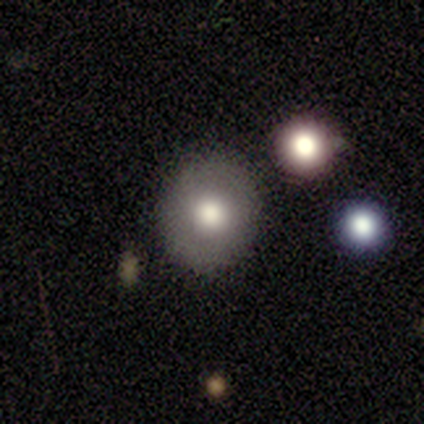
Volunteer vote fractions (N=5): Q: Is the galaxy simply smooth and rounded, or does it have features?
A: smooth — 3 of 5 (60%).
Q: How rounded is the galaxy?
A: round — 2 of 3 (67%).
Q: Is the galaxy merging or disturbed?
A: none — 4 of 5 (80%).